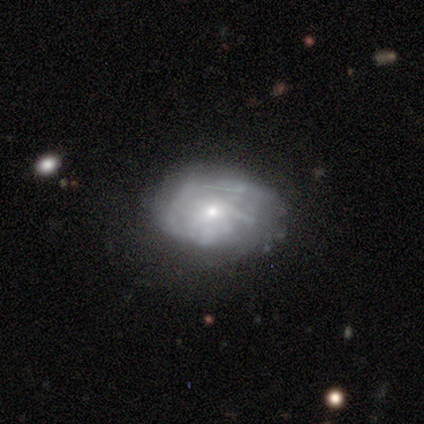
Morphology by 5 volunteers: smooth-or-featured: featured or disk: 80% | smooth: 20% | star or artifact: 0%
  disk-edge-on: no: 100% | yes: 0%
    bar: no: 75% | weak: 25% | strong: 0%
    has-spiral-arms: yes: 50% (tied) | no: 50% (tied)
      spiral-winding: medium: 100% | tight: 0% | loose: 0%
      spiral-arm-count: 1: 100% | 2: 0% | 3: 0% | 4: 0% | more than 4: 0% | can't tell: 0%
    bulge-size: small: 100% | dominant: 0% | large: 0% | moderate: 0% | none: 0%
  merging: none: 80% | major disturbance: 20% | minor disturbance: 0% | merger: 0%